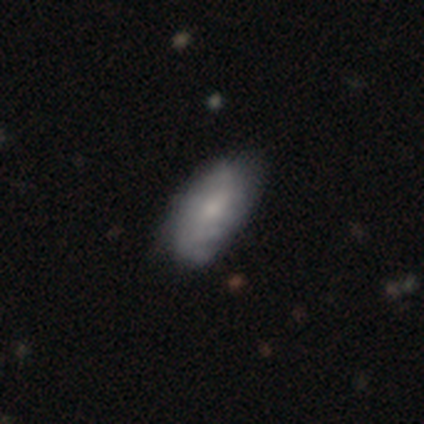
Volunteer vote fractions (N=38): Q: Smooth or featured?
A: smooth (45%); runner-up: featured or disk (42%)
Q: How rounded?
A: in between (94%); runner-up: cigar-shaped (6%)
Q: Merging?
A: none (85%); runner-up: minor disturbance (15%)